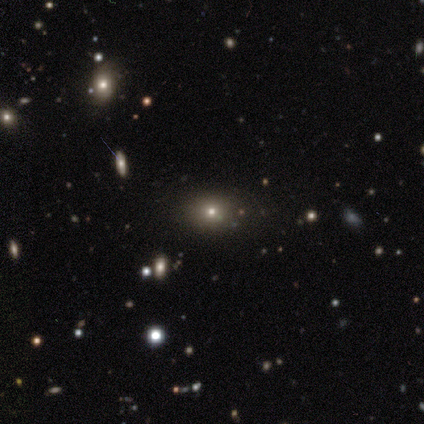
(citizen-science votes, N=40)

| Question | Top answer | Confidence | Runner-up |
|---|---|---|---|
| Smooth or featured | smooth | 50% | star or artifact (35%) |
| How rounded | round | 55% | in between (45%) |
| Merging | none | 81% | minor disturbance (15%) |